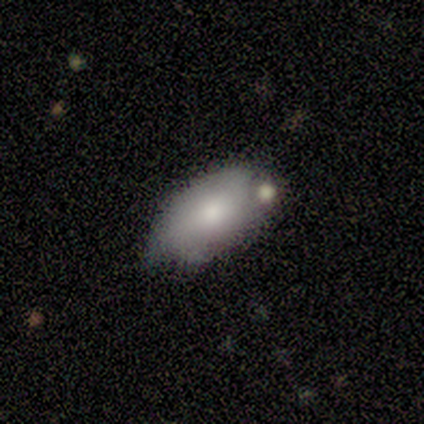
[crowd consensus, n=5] This appears to be a smooth galaxy with no disk features (60%) that is in between round and cigar-shaped (100%). Merging: minor disturbance (60%).